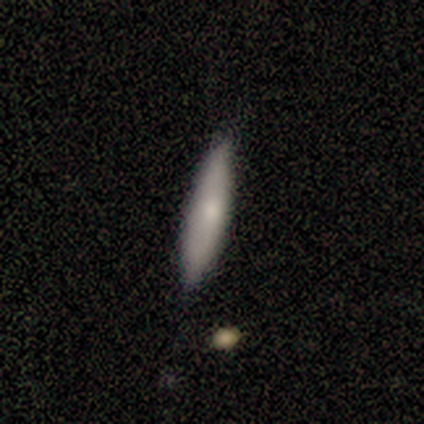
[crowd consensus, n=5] smooth_or_featured: smooth (p=0.60) [alt: featured or disk p=0.40]
how_rounded: cigar-shaped (p=1.00)
merging: none (p=0.80) [alt: merger p=0.20]